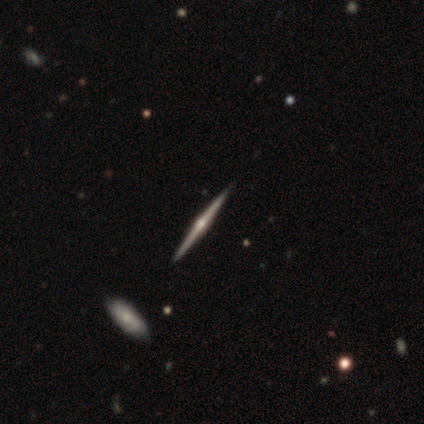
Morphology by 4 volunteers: A featured or disk galaxy (75%) viewed edge-on (100%) with a rounded central bulge (100%). Merging: none (100%).